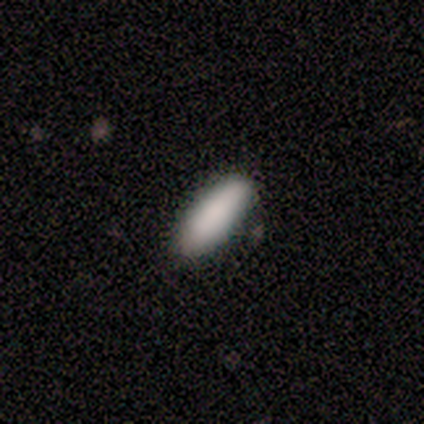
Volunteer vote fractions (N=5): Smooth or featured? 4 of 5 (80%) said smooth. How rounded? 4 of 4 (100%) said in between. Merging? 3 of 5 (60%) said none.